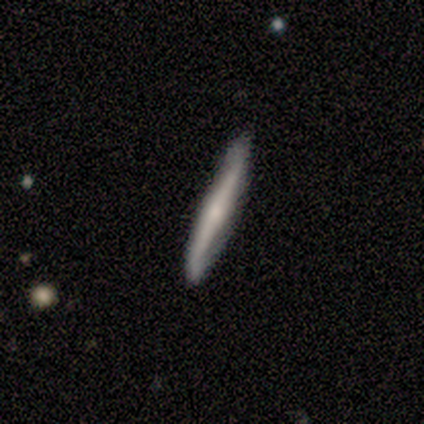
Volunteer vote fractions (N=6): A featured or disk galaxy (67%) viewed edge-on (50%, tied with no) with no central bulge (50%, tied with rounded).

Vote fractions:
- Smooth or featured? featured or disk: 67% / smooth: 33% / star or artifact: 0%
- Edge-on disk? yes: 50% (tied) / no: 50% (tied)
- Edge-on bulge? none: 50% (tied) / rounded: 50% (tied) / boxy: 0%
- Merging? none: 83% / minor disturbance: 17% / major disturbance: 0% / merger: 0%